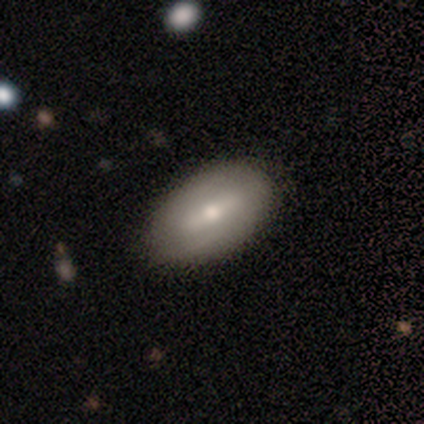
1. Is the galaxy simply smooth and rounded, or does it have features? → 40% smooth (tied), 40% featured or disk (tied), 20% star or artifact.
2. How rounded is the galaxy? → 100% in between, 0% round, 0% cigar-shaped.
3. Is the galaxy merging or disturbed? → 100% none, 0% minor disturbance, 0% major disturbance, 0% merger.